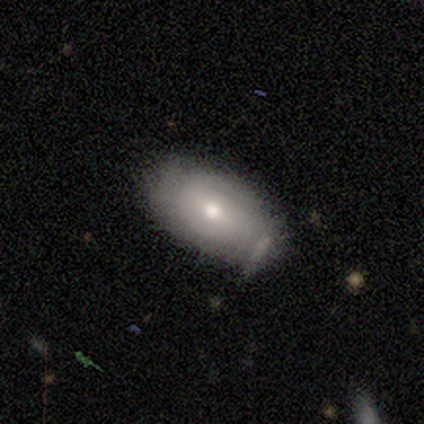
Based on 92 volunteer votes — A smooth galaxy with no disk features (53%) that is in between round and cigar-shaped (92%).

Vote fractions:
- Smooth or featured? smooth: 53% / featured or disk: 38% / star or artifact: 9%
- How rounded? in between: 92% / round: 4% / cigar-shaped: 4%
- Merging? none: 69% / minor disturbance: 19% / merger: 10% / major disturbance: 2%